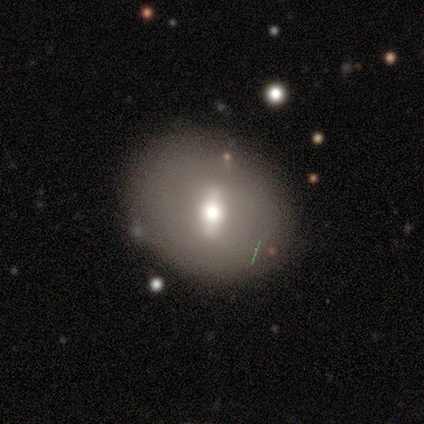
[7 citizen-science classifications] Smooth or featured: featured or disk — 86% (smooth — 14%)
Edge-on disk: no — 100%
Bar: strong — 50% (weak — 33%)
Spiral arms: no — 100%
Bulge size: moderate — 67% (small — 33%)
Merging: none — 100%